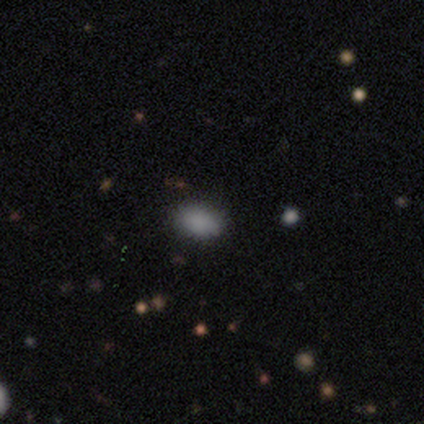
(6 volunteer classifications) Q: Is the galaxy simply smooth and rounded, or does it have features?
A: smooth — 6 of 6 (100%).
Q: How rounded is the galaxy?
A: in between — 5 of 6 (83%).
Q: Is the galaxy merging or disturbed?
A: none — 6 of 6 (100%).